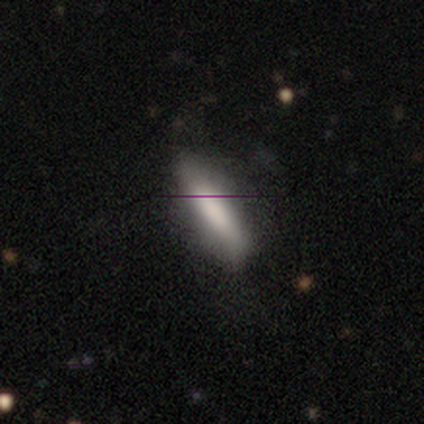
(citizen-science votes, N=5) Smooth or featured? 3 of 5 (60%) said smooth. How rounded? 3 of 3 (100%) said cigar-shaped. Merging? 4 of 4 (100%) said none.